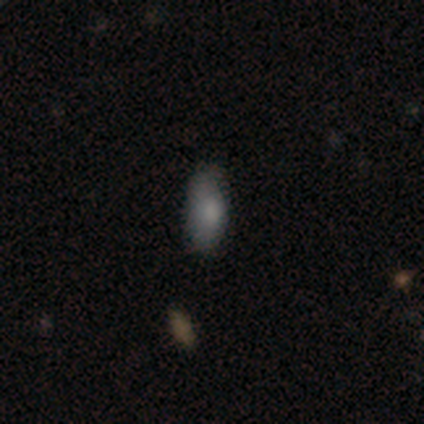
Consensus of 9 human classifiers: This appears to be a smooth galaxy with no disk features (89%) that is in between round and cigar-shaped (75%). Merging: none (67%).